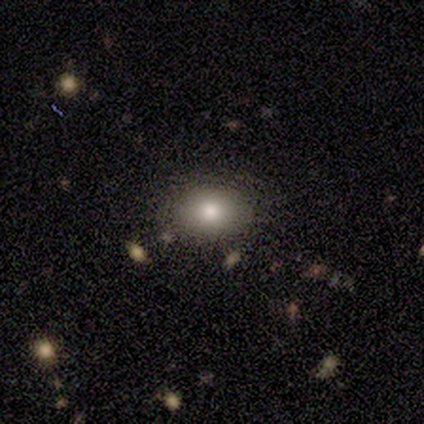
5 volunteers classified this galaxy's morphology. This is clearly a smooth galaxy (80%). How rounded: likely in between (75%). Merging: clearly none (80%).